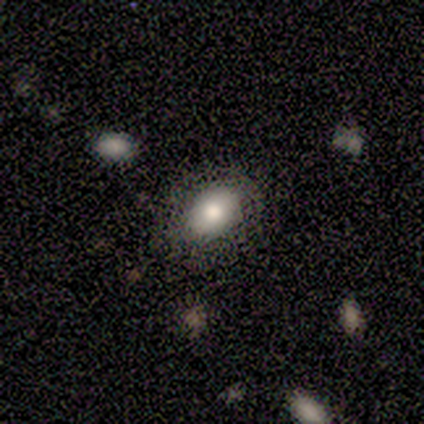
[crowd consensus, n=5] Smooth or featured? smooth (100%)
How rounded? in between (60%)
Merging? none (80%)